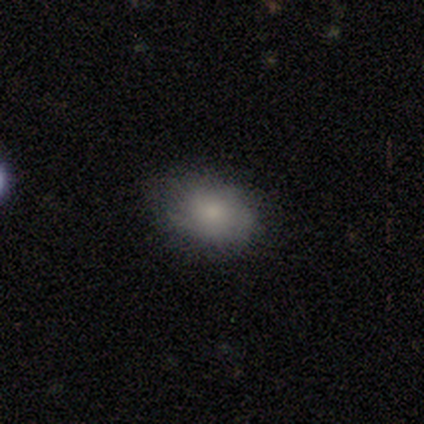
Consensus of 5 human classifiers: This appears to be a smooth galaxy with no disk features (100%) that is in between round and cigar-shaped (80%). Merging: none (60%).